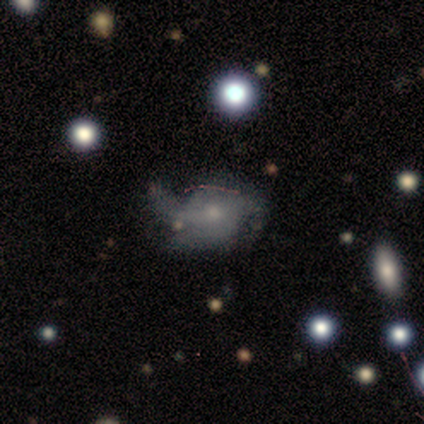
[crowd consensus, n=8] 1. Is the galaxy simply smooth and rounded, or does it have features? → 38% smooth (tied), 38% featured or disk (tied), 25% star or artifact.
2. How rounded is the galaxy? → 67% round, 33% in between, 0% cigar-shaped.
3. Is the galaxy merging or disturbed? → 50% minor disturbance, 33% none, 17% major disturbance, 0% merger.